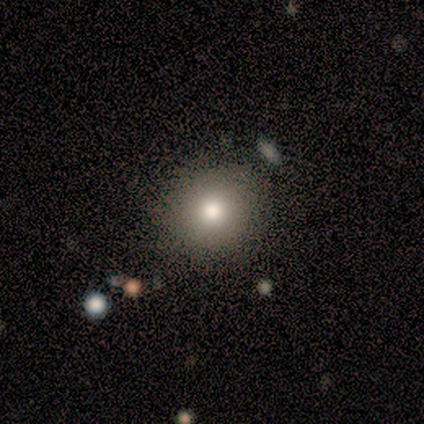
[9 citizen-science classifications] Smooth or featured? 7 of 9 (78%) said smooth. How rounded? 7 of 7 (100%) said round. Merging? 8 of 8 (100%) said none.